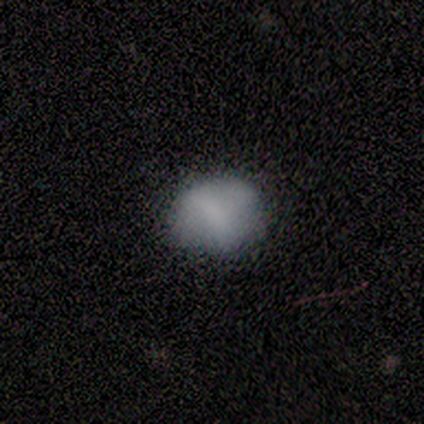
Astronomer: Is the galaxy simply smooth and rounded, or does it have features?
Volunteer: smooth — 40%, tied with star or artifact at 40%.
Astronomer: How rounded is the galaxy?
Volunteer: round — 50%, tied with in between at 50%.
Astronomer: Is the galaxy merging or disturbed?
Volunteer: none — 100%.